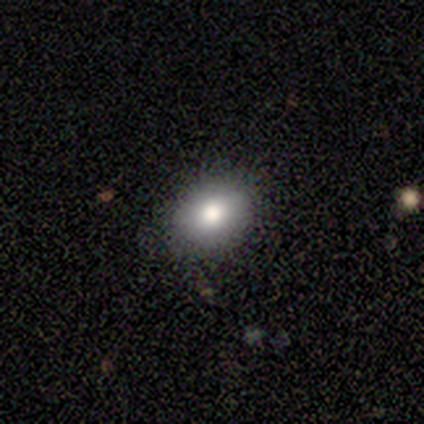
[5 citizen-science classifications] Smooth or featured? smooth (100%)
How rounded? in between (60%)
Merging? none (80%)